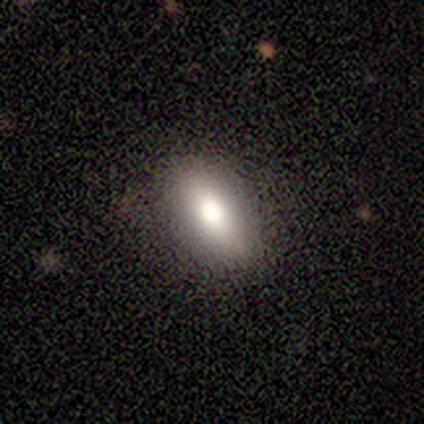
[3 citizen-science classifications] Morphology: type=smooth (67%); roundness=in between (50%, tied with cigar-shaped); merging=none (100%).